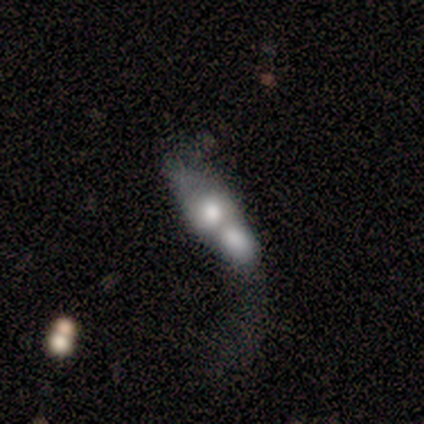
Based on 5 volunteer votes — smooth-or-featured: smooth: 80% | featured or disk: 20% | star or artifact: 0%
  how-rounded: in between: 75% | cigar-shaped: 25% | round: 0%
  merging: merger: 100% | none: 0% | minor disturbance: 0% | major disturbance: 0%